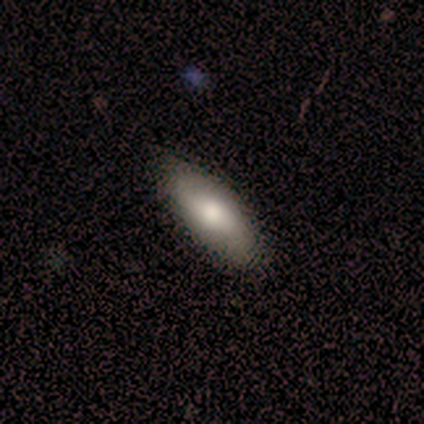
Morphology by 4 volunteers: Smooth or featured?
  - smooth: 100% *
  - featured or disk: 0%
  - star or artifact: 0%
How rounded?
  - in between: 75% *
  - round: 25%
  - cigar-shaped: 0%
Merging?
  - none: 75% *
  - minor disturbance: 25%
  - major disturbance: 0%
  - merger: 0%